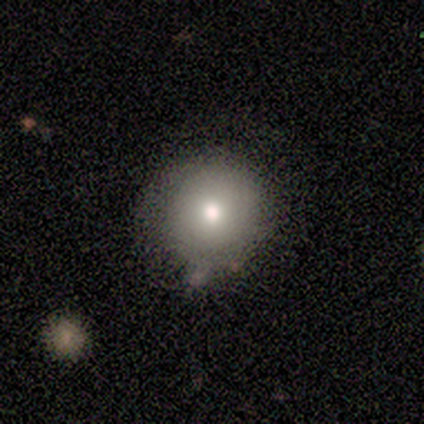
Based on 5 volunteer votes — Q: Smooth or featured?
A: smooth (60%); runner-up: featured or disk (20%)
Q: How rounded?
A: round (67%); runner-up: in between (33%)
Q: Merging?
A: none (75%); runner-up: minor disturbance (25%)